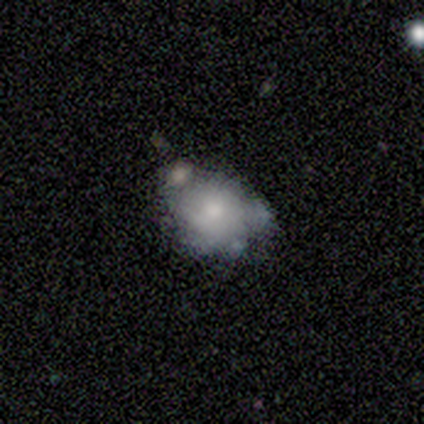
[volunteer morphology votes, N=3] Smooth or featured? smooth (100%)
How rounded? in between (67%)
Merging? none (33%, tied with minor disturbance and merger)